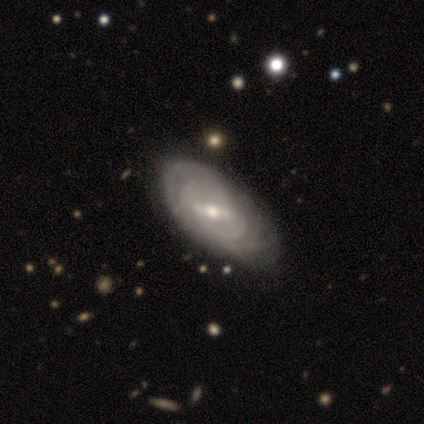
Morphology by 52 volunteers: type=featured or disk (75%); edge-on=no (100%); bar=strong (54%); spiral arms=yes (85%); winding=tight (73%); arm count=can't tell (61%); bulge=moderate (54%); merging=none (58%).